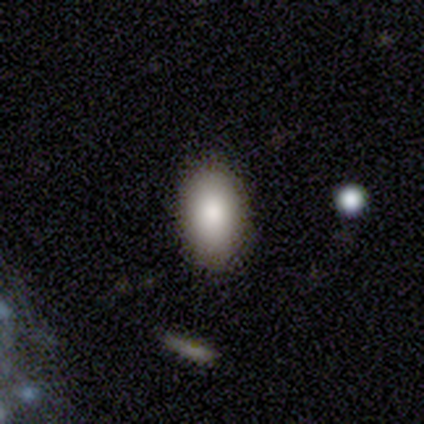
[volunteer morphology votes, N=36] A smooth galaxy with no disk features (81%) that is in between round and cigar-shaped (90%). Merging: none (91%).